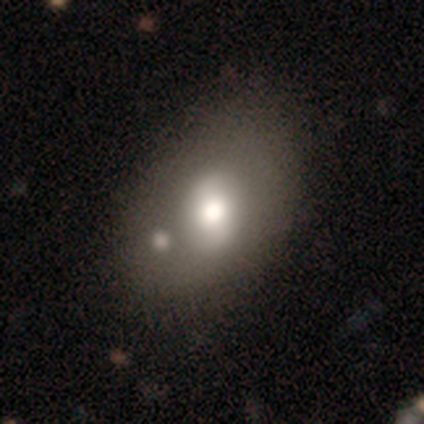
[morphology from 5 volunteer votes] Q: Smooth or featured?
A: featured or disk (60%); runner-up: smooth (40%)
Q: Edge-on disk?
A: no (100%)
Q: Bar?
A: no (100%)
Q: Spiral arms?
A: no (67%); runner-up: yes (33%)
Q: Bulge size?
A: moderate (100%)
Q: Merging?
A: none (60%); runner-up: merger (40%)